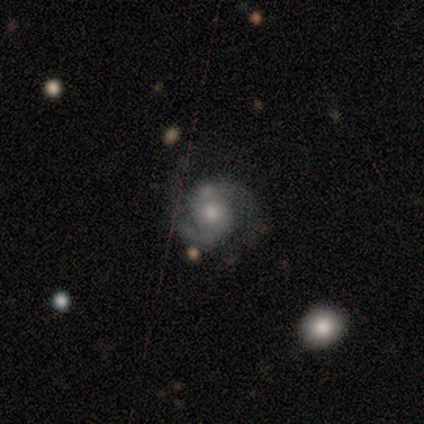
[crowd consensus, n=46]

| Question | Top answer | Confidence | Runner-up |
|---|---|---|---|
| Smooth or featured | featured or disk | 83% | smooth (13%) |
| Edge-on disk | no | 97% | yes (3%) |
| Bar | no | 78% | weak (19%) |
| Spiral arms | yes | 89% | no (11%) |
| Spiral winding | medium | 55% | loose (24%) |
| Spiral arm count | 2 | 100% | — |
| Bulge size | moderate | 43% | small (41%) |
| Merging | none | 68% | minor disturbance (16%) |